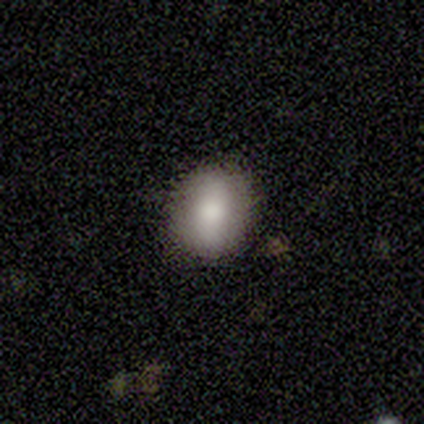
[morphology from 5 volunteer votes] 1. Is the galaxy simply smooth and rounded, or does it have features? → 100% smooth, 0% featured or disk, 0% star or artifact.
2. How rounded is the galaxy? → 60% round, 40% in between, 0% cigar-shaped.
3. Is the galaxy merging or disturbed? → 100% none, 0% minor disturbance, 0% major disturbance, 0% merger.